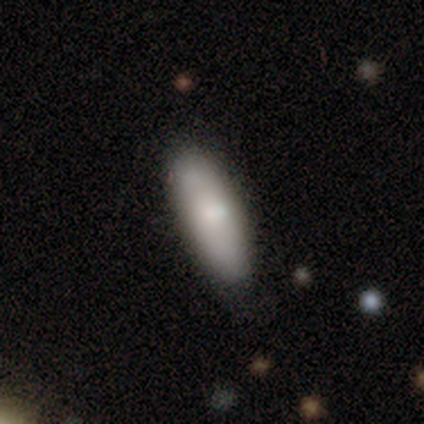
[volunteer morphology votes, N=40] A smooth galaxy with no disk features (78%) that is cigar-shaped (52%). Merging: none (84%).